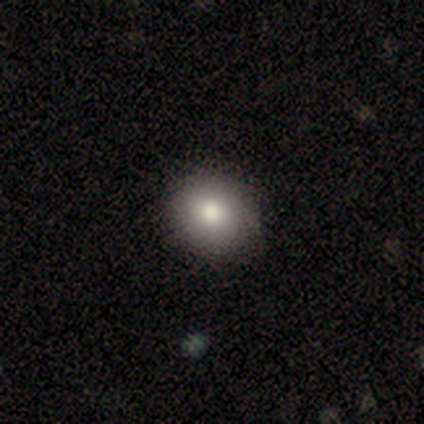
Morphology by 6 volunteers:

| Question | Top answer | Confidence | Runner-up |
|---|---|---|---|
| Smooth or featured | smooth | 83% | star or artifact (17%) |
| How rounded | round | 80% | in between (20%) |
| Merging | none | 100% | — |